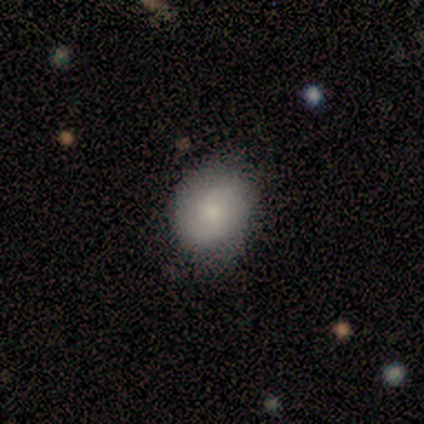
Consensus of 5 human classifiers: Morphology: type=smooth (80%); roundness=round (75%); merging=none (100%).